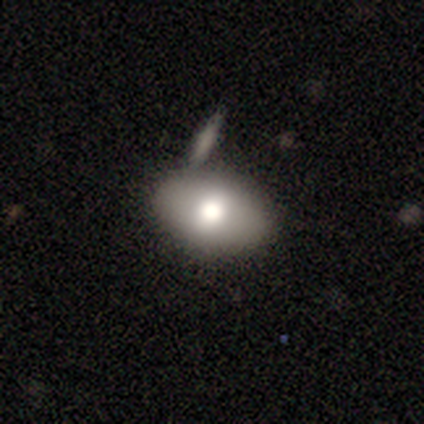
smooth 80%, star or artifact 20%, featured or disk 0%. Down the decision tree: how rounded — in between (75%); merging — none (75%).